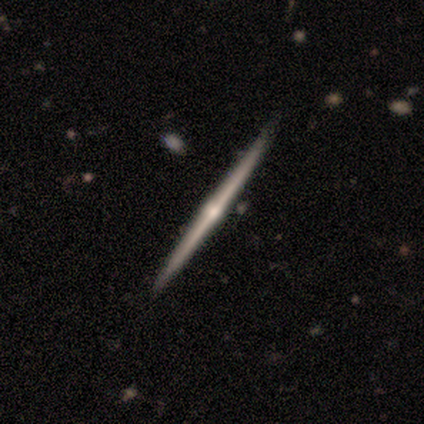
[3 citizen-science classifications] A featured or disk galaxy (100%) viewed edge-on (67%) with a rounded central bulge (100%).

Vote fractions:
- Smooth or featured? featured or disk: 100% / smooth: 0% / star or artifact: 0%
- Edge-on disk? yes: 67% / no: 33%
- Edge-on bulge? rounded: 100% / boxy: 0% / none: 0%
- Merging? none: 100% / minor disturbance: 0% / major disturbance: 0% / merger: 0%